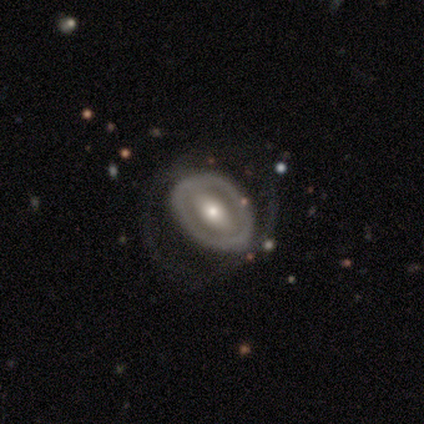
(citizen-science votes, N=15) A featured or disk galaxy (80%) with a strong bar (50%), no spiral arms (67%) and a moderate central bulge (58%). Merging: none (64%).